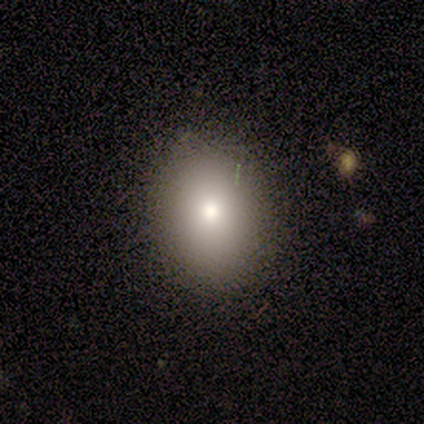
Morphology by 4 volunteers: A smooth galaxy with no disk features (75%) that is in between round and cigar-shaped (100%). Merging: none (100%).